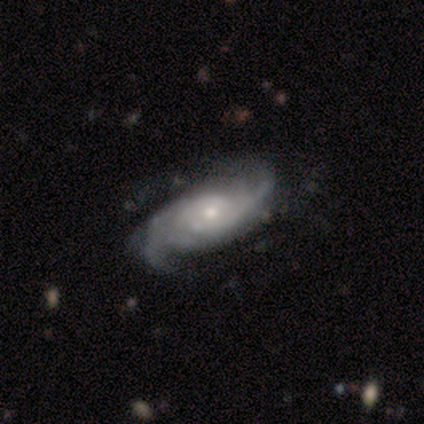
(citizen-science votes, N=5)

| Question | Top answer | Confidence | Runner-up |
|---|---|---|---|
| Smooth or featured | featured or disk | 100% | — |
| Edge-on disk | no | 100% | — |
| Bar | no | 80% | weak (20%) |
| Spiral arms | yes | 100% | — |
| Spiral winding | medium | 60% | tight (20%) |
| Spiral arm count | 3 | 40% | tied: can't tell (40%) |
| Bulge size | small | 60% | moderate (40%) |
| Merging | minor disturbance | 60% | none (40%) |